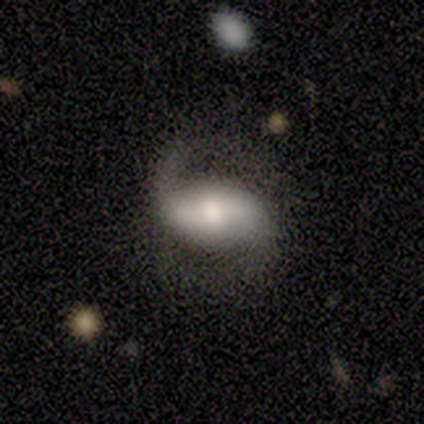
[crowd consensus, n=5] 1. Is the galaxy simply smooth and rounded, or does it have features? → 100% featured or disk, 0% smooth, 0% star or artifact.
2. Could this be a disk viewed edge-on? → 100% no, 0% yes.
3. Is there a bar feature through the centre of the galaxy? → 60% strong, 20% weak, 20% no.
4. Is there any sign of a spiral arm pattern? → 100% yes, 0% no.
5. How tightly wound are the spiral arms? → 60% loose, 20% tight, 20% medium.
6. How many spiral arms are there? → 100% 2, 0% 1, 0% 3, 0% 4, 0% more than 4, 0% can't tell.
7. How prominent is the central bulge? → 80% moderate, 20% large, 0% dominant, 0% small, 0% none.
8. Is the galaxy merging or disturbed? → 60% none, 40% minor disturbance, 0% major disturbance, 0% merger.